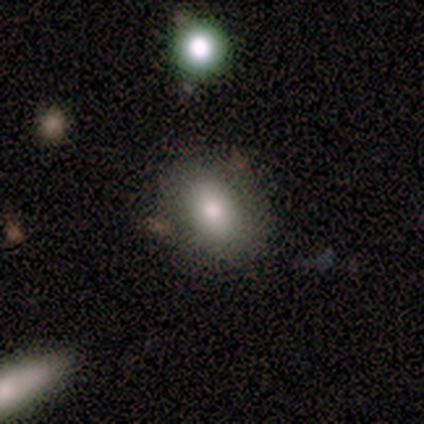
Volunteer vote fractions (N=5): Smooth or featured? smooth (60%)
How rounded? in between (100%)
Merging? none (100%)